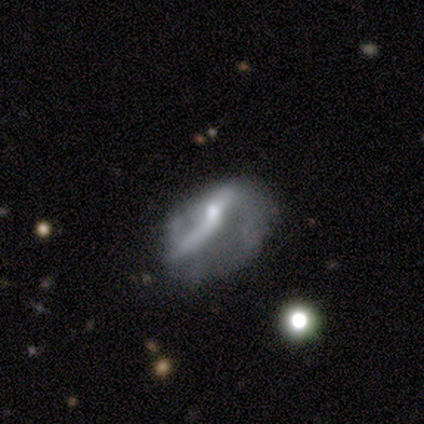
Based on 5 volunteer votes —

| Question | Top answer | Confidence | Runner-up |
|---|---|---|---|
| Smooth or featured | featured or disk | 60% | smooth (40%) |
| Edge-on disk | no | 100% | — |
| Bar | no | 100% | — |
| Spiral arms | yes | 100% | — |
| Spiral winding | loose | 67% | medium (33%) |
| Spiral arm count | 2 | 100% | — |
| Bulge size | small | 67% | moderate (33%) |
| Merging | none | 40% | tied: major disturbance (40%) |